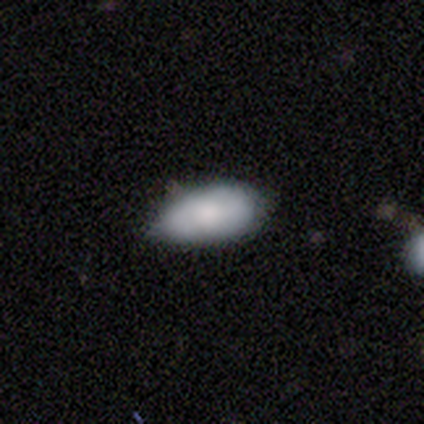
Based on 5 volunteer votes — Smooth or featured? 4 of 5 (80%) said smooth. How rounded? 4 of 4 (100%) said in between. Merging? 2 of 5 (40%, tied with minor disturbance) said none.